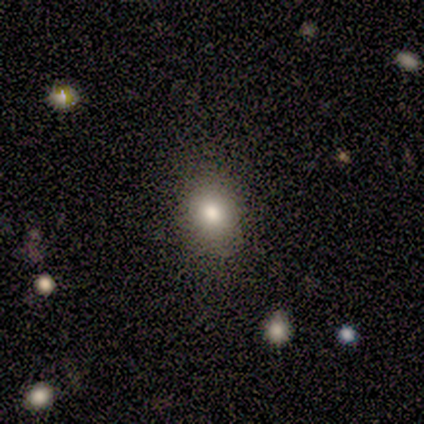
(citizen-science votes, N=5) smooth_or_featured: smooth (p=1.00)
how_rounded: in between (p=0.60) [alt: round p=0.40]
merging: none (p=0.80) [alt: minor disturbance p=0.20]